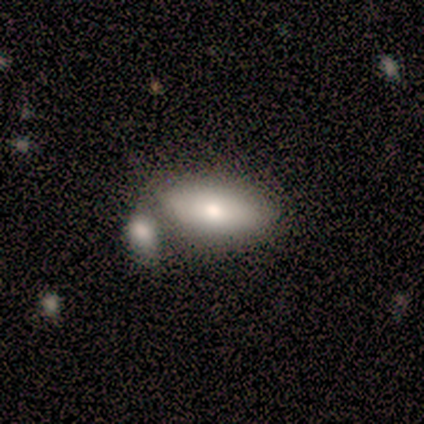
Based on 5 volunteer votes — Smooth or featured? featured or disk (60%)
Edge-on disk? no (100%)
Bar? no (67%)
Spiral arms? no (100%)
Bulge size? small (67%)
Merging? none (80%)